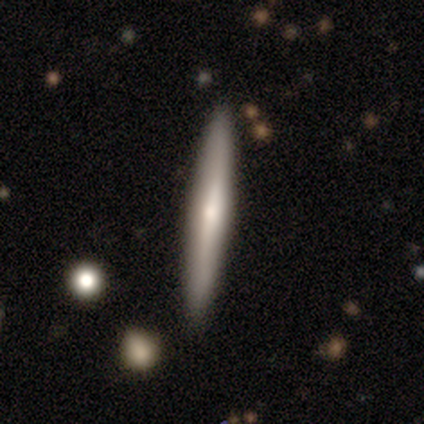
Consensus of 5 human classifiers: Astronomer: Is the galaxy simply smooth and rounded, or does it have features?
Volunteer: smooth — 80%.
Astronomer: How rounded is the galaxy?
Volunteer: cigar-shaped — 100%.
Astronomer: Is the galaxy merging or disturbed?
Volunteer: none — 100%.